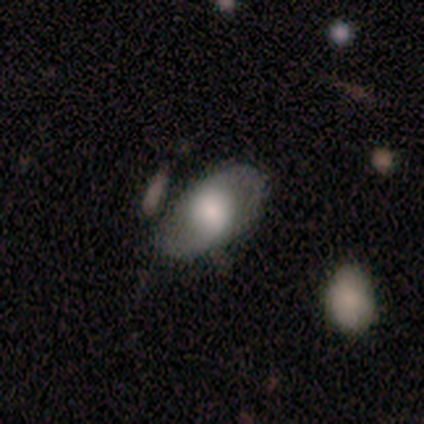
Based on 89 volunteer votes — Smooth or featured? 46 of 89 (52%) said smooth. How rounded? 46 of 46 (100%) said in between. Merging? 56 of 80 (70%) said none.